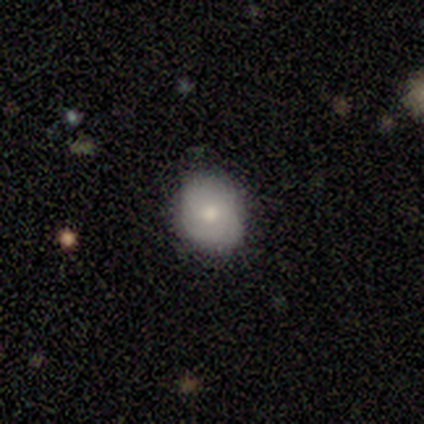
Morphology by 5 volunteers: Smooth or featured? 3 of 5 (60%) said smooth. How rounded? 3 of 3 (100%) said in between. Merging? 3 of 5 (60%) said minor disturbance.